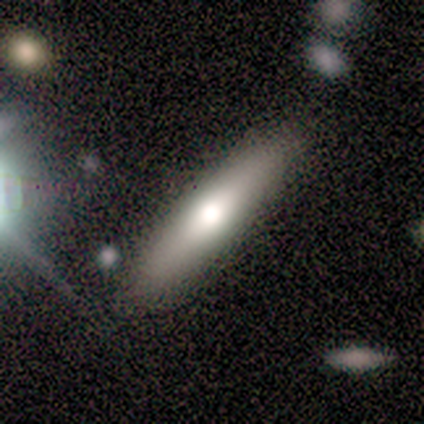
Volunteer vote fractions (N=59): Q: Smooth or featured?
A: smooth (56%); runner-up: featured or disk (36%)
Q: How rounded?
A: cigar-shaped (73%); runner-up: in between (27%)
Q: Merging?
A: none (85%); runner-up: minor disturbance (6%)